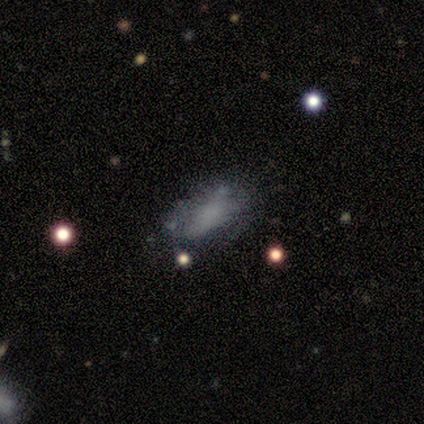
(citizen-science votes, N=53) Morphology: type=smooth (60%); roundness=in between (100%); merging=none (62%).